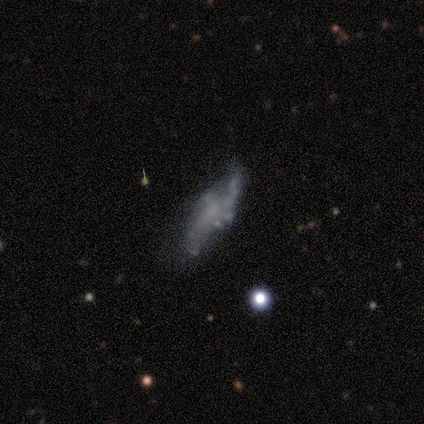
A featured or disk galaxy (60%) with no bar (67%), no spiral arms (67%) and no central bulge (67%). Merging: minor disturbance (50%).